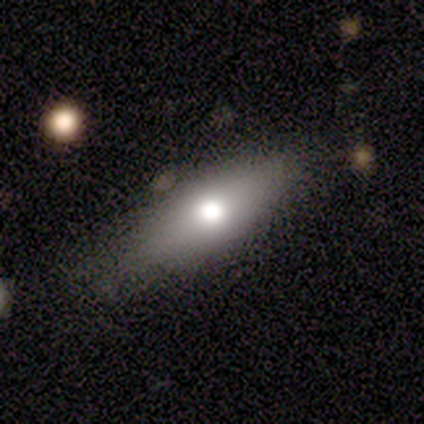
This appears to be a smooth galaxy with no disk features (100%) that is in between round and cigar-shaped (40%, tied with cigar-shaped). Merging: none (100%).